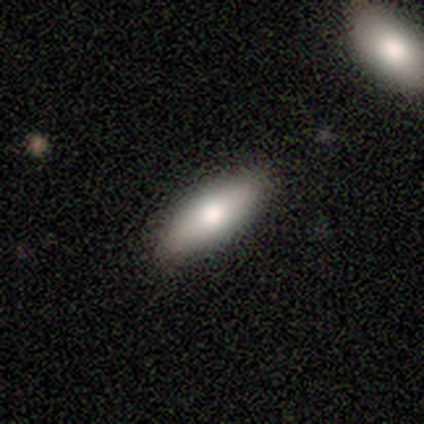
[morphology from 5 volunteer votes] Smooth or featured?
  - smooth: 100% *
  - featured or disk: 0%
  - star or artifact: 0%
How rounded?
  - cigar-shaped: 60% *
  - in between: 40%
  - round: 0%
Merging?
  - none: 100% *
  - minor disturbance: 0%
  - major disturbance: 0%
  - merger: 0%